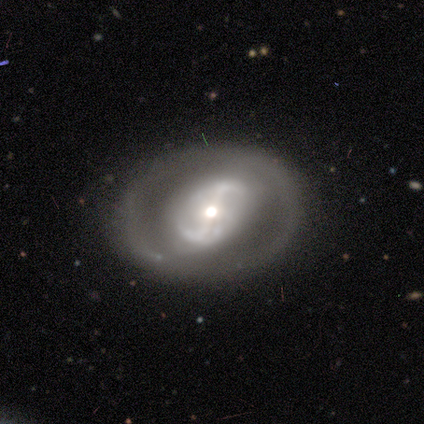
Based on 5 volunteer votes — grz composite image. It shows a featured or disk galaxy (80%) with a strong bar (50%), 2 (67%) tight (67%) spiral arms (75%) and a moderate central bulge (75%). Merging: none (80%).